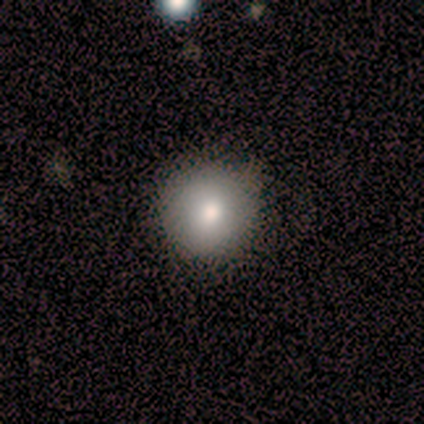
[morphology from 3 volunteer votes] smooth 100%, featured or disk 0%, star or artifact 0%. Down the decision tree: how rounded — round (100%); merging — none (100%).